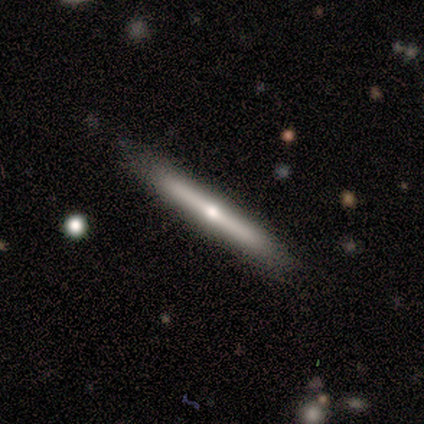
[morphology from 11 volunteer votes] smooth_or_featured: featured or disk (p=0.82) [alt: smooth p=0.18]
disk_edge_on: yes (p=1.00)
edge_on_bulge: rounded (p=0.78) [alt: boxy p=0.11]
merging: none (p=1.00)